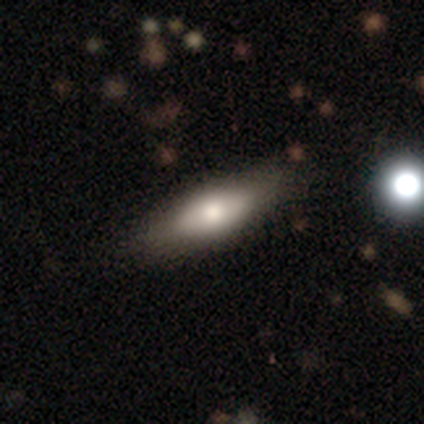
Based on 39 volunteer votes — Smooth or featured?
  - smooth: 62% *
  - featured or disk: 33%
  - star or artifact: 5%
How rounded?
  - in between: 58% *
  - cigar-shaped: 33%
  - round: 8%
Merging?
  - none: 59% *
  - minor disturbance: 11%
  - merger: 3%
  - major disturbance: 0%